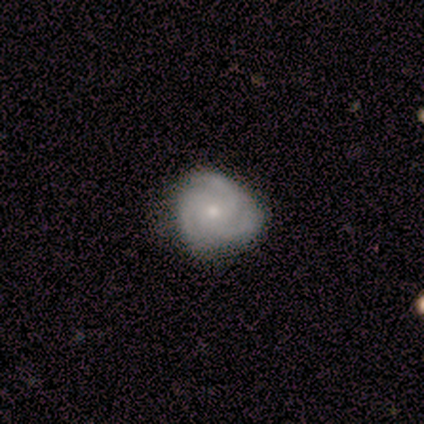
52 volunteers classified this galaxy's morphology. A featured or disk galaxy (75%) with no bar (89%), 3 (100%) tight (58%) spiral arms (100%) and a small central bulge (63%).

Vote fractions:
- Smooth or featured? featured or disk: 75% / smooth: 21% / star or artifact: 4%
- Edge-on disk? no: 97% / yes: 3%
- Bar? no: 89% / weak: 11% / strong: 0%
- Spiral arms? yes: 100% / no: 0%
- Spiral winding? tight: 58% / medium: 39% / loose: 3%
- Spiral arm count? 3: 100% / 1: 0% / 2: 0% / 4: 0% / more than 4: 0% / can't tell: 0%
- Bulge size? small: 63% / moderate: 34% / dominant: 3% / large: 0% / none: 0%
- Merging? none: 76% / minor disturbance: 20% / major disturbance: 2% / merger: 2%